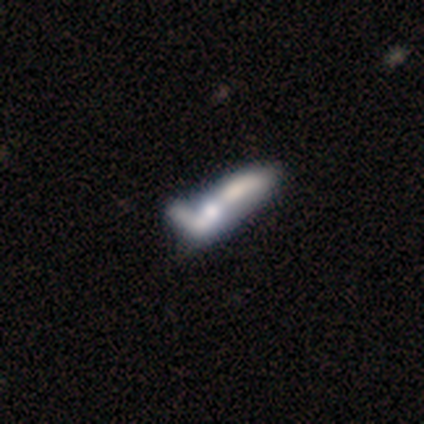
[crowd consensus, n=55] Smooth or featured? featured or disk (55%)
Edge-on disk? no (73%)
Bar? no (91%)
Spiral arms? no (91%)
Bulge size? none (41%)
Merging? merger (49%)